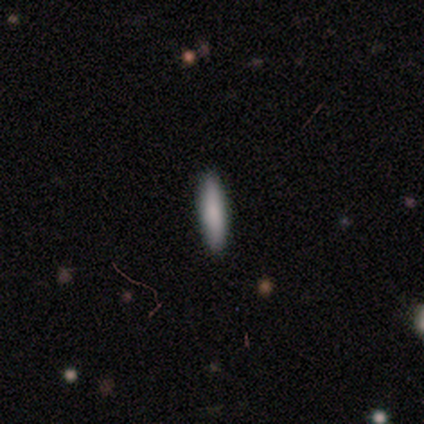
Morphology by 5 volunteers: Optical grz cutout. It shows a smooth galaxy with no disk features (100%) that is cigar-shaped (100%). Merging: none (100%).